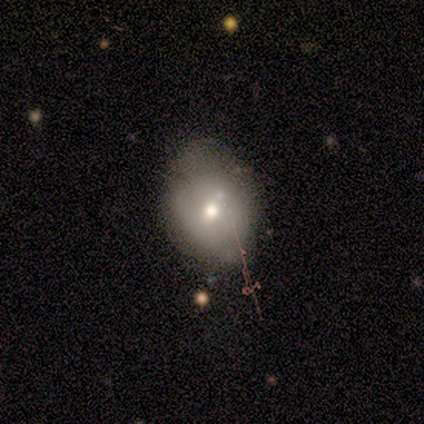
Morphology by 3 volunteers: type=star or artifact (67%).